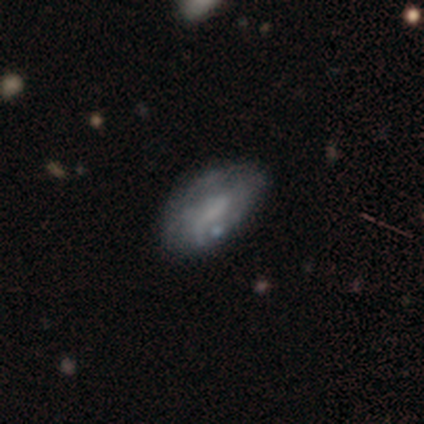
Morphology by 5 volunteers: type=featured or disk (60%); edge-on=no (100%); bar=weak (67%); spiral arms=yes (67%); winding=loose (100%); arm count=2 (50%, tied with can't tell); bulge=none (67%); merging=none (75%).